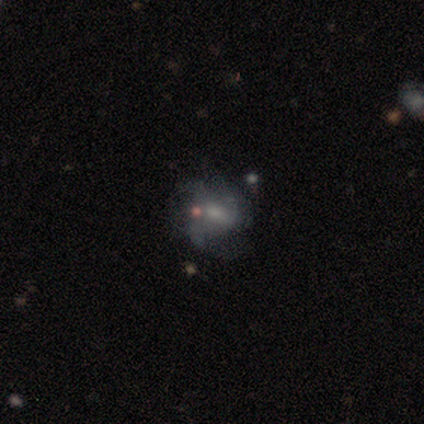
smooth_or_featured: featured or disk (p=0.60) [alt: smooth p=0.40]
disk_edge_on: no (p=1.00)
bar: strong (p=0.33) [tied with: weak p=0.33, no p=0.33]
has_spiral_arms: yes (p=0.67) [alt: no p=0.33]
spiral_winding: loose (p=1.00)
spiral_arm_count: 3 (p=1.00)
bulge_size: large (p=0.33) [tied with: moderate p=0.33, none p=0.33]
merging: none (p=0.80) [alt: major disturbance p=0.20]